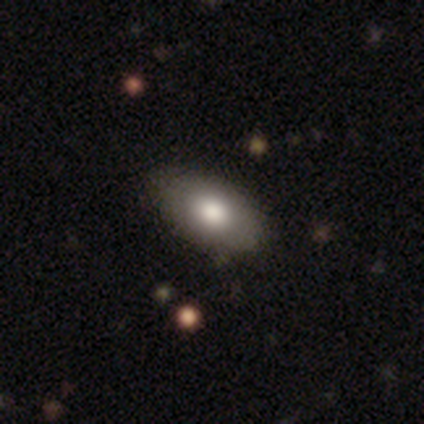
Morphology: type=smooth (60%); roundness=in between (100%); merging=none (60%).